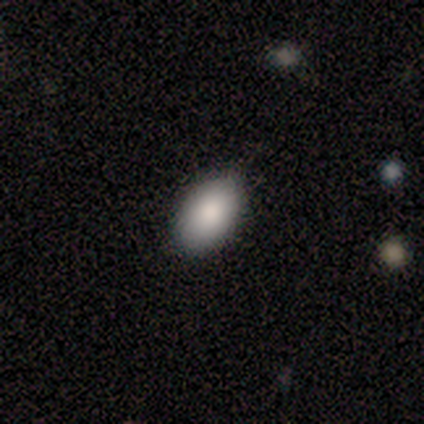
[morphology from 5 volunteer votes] Smooth or featured? 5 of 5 (100%) said smooth. How rounded? 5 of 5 (100%) said in between. Merging? 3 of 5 (60%) said minor disturbance.